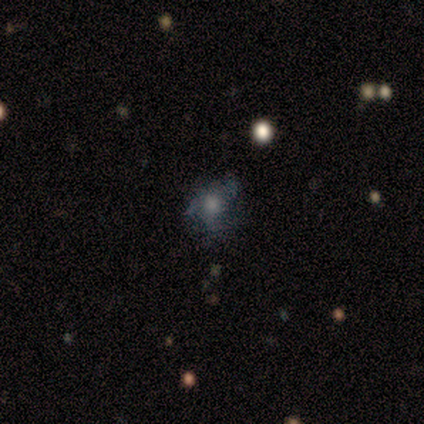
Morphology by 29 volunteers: Volunteers were most divided on "spiral arms": yes: 53%, no: 47%. More confident: edge-on disk — no (100%); bar — no (89%); spiral winding — medium (70%); smooth or featured — featured or disk (66%); spiral arm count — 3 (60%); merging — none (60%); bulge size — moderate (53%).